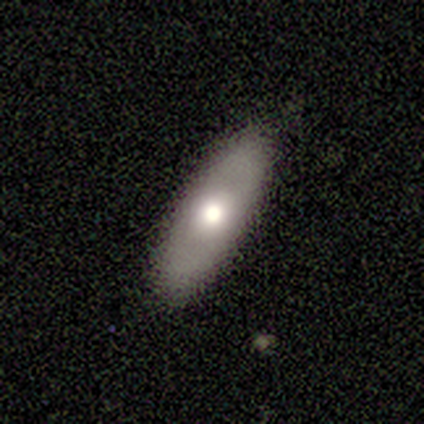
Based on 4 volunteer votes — Q: Smooth or featured?
A: smooth (50%); runner-up: featured or disk (25%)
Q: How rounded?
A: in between (100%)
Q: Merging?
A: none (100%)